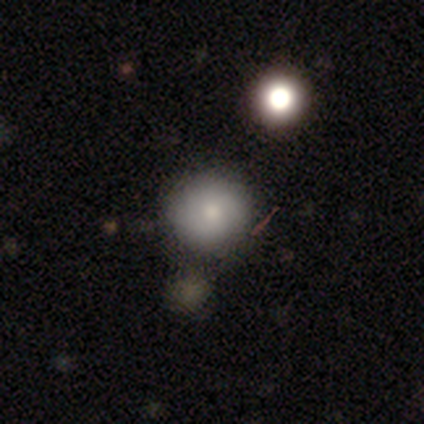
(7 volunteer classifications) A smooth galaxy with no disk features (86%) that is round (100%). Merging: none (83%).